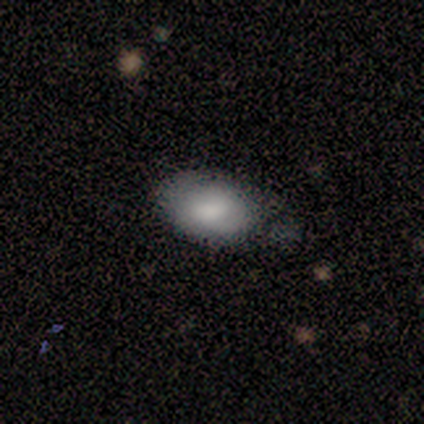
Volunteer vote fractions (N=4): Smooth or featured: smooth — 75% (star or artifact — 25%)
How rounded: in between — 100%
Merging: none — 67% (major disturbance — 33%)